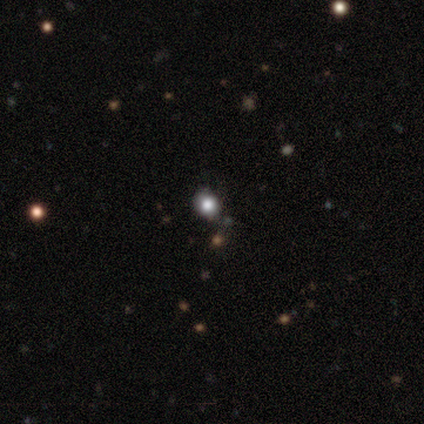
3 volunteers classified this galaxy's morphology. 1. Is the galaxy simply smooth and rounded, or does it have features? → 67% smooth, 33% star or artifact, 0% featured or disk.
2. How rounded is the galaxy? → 100% round, 0% in between, 0% cigar-shaped.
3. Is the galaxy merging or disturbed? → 100% none, 0% minor disturbance, 0% major disturbance, 0% merger.